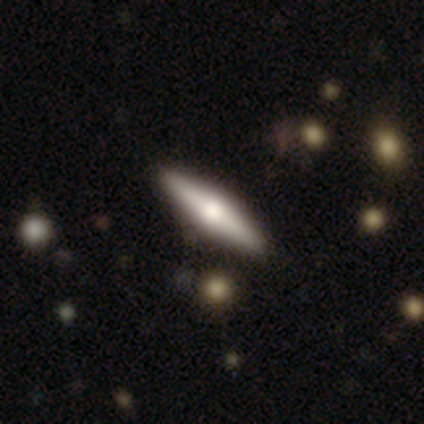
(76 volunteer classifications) Overall: featured or disk (54%; smooth 41%). Edge-on disk: yes (95%). Edge-on bulge: rounded (95%). Merging: none (47%).